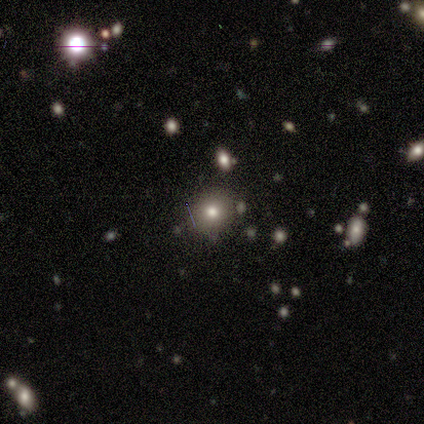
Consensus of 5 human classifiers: Q: Smooth or featured?
A: smooth (60%); runner-up: featured or disk (40%)
Q: How rounded?
A: round (100%)
Q: Merging?
A: none (100%)